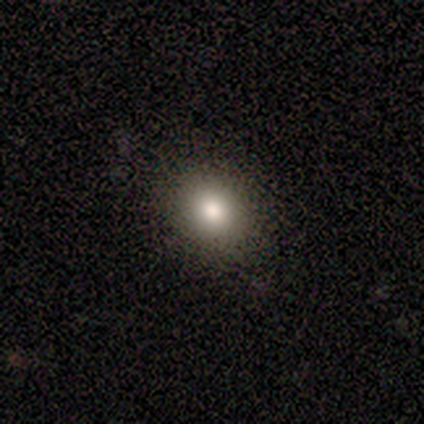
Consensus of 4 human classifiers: Overall: smooth (100%). How rounded: round (75%). Merging: none (75%).